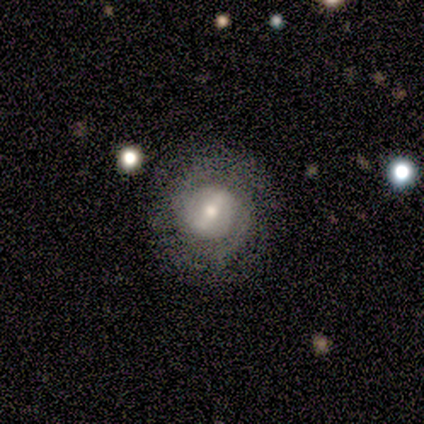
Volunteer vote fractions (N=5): Smooth or featured?
  - featured or disk: 60% *
  - smooth: 20%
  - star or artifact: 20%
Edge-on disk?
  - no: 100% *
  - yes: 0%
Bar?
  - no: 67% *
  - weak: 33%
  - strong: 0%
Spiral arms?
  - yes: 67% *
  - no: 33%
Spiral winding?
  - tight: 50% * (tied)
  - loose: 50% * (tied)
  - medium: 0%
Spiral arm count?
  - 1: 50% * (tied)
  - 2: 50% * (tied)
  - 3: 0%
  - 4: 0%
  - more than 4: 0%
  - can't tell: 0%
Bulge size?
  - moderate: 67% *
  - small: 33%
  - dominant: 0%
  - large: 0%
  - none: 0%
Merging?
  - none: 75% *
  - major disturbance: 25%
  - minor disturbance: 0%
  - merger: 0%